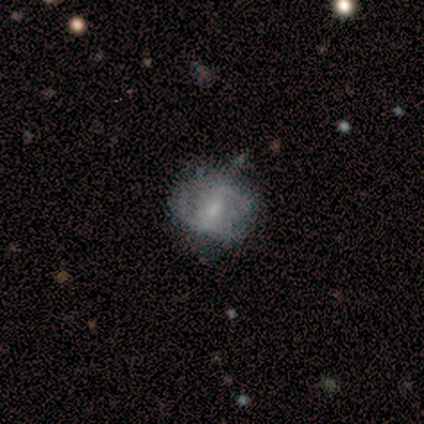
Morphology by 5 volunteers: Overall: smooth (60%; featured or disk 40%). How rounded: round (67%; in between 33%). Merging: none (100%).